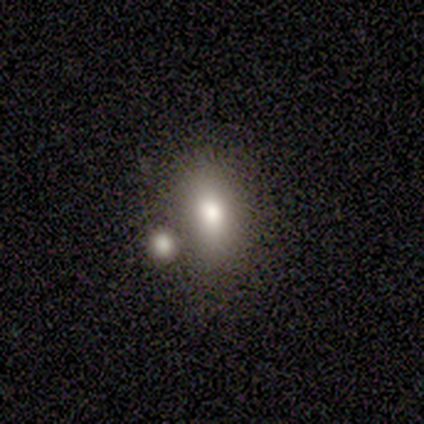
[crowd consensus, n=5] This appears to be a smooth galaxy with no disk features (80%) that is in between round and cigar-shaped (75%). Merging: none (40%, tied with minor disturbance).